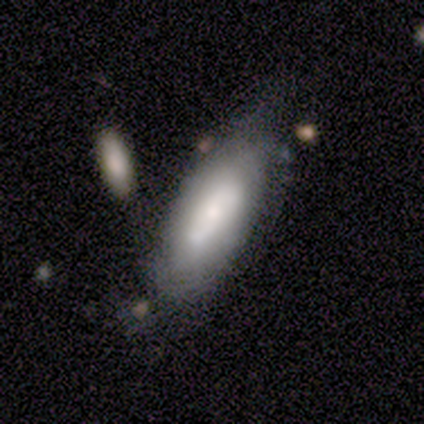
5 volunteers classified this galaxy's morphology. smooth-or-featured: featured or disk: 60% | smooth: 40% | star or artifact: 0%
  disk-edge-on: no: 100% | yes: 0%
    bar: no: 67% | weak: 33% | strong: 0%
    has-spiral-arms: yes: 67% | no: 33%
      spiral-winding: tight: 50% (tied) | loose: 50% (tied) | medium: 0%
      spiral-arm-count: 2: 50% (tied) | can't tell: 50% (tied) | 1: 0% | 3: 0% | 4: 0% | more than 4: 0%
    bulge-size: dominant: 33% (tied) | moderate: 33% (tied) | small: 33% (tied) | large: 0% | none: 0%
  merging: none: 40% (tied) | major disturbance: 40% (tied) | merger: 20% | minor disturbance: 0%